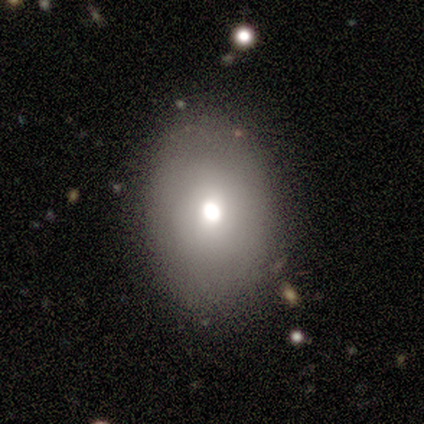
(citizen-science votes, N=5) Overall: smooth (100%). How rounded: in between (80%). Merging: none (60%; minor disturbance 40%).